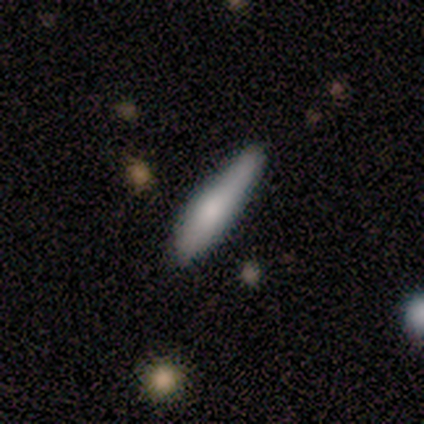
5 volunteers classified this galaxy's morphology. smooth-or-featured: smooth: 60% | featured or disk: 20% | star or artifact: 20%
  how-rounded: cigar-shaped: 67% | in between: 33% | round: 0%
  merging: none: 50% (tied) | minor disturbance: 50% (tied) | major disturbance: 0% | merger: 0%